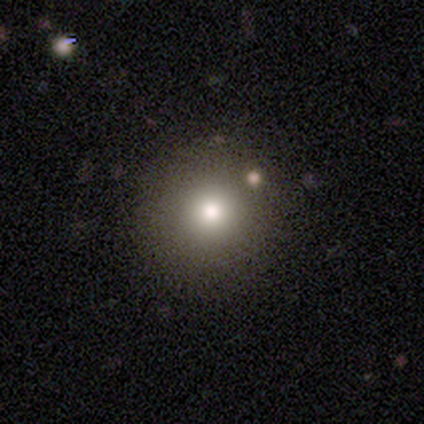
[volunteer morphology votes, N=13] Volunteers were most divided on "merging": none: 83%, minor disturbance: 8%, major disturbance: 8%, merger: 0%. More confident: how rounded — round (100%); smooth or featured — smooth (85%).